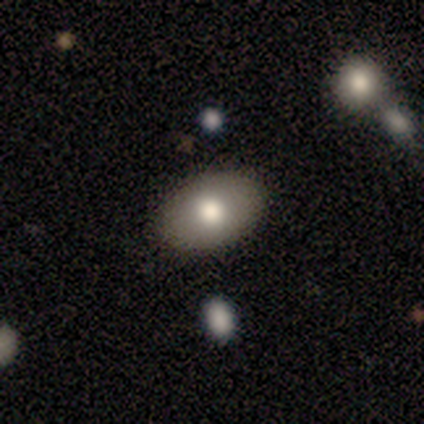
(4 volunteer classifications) Morphology: type=smooth (75%); roundness=in between (100%); merging=none (100%).